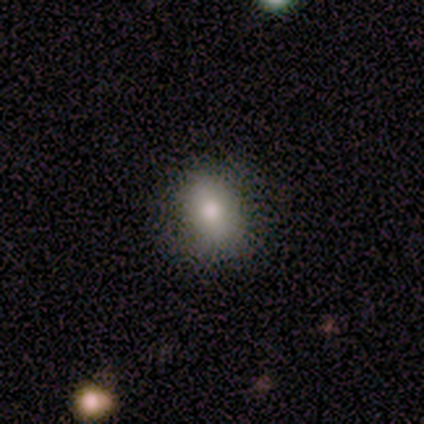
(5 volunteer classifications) Morphology: type=smooth (80%); roundness=round (50%, tied with in between); merging=none (100%).